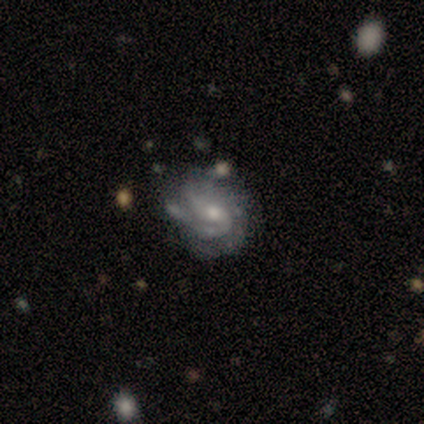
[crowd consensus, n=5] smooth_or_featured: featured or disk (p=1.00)
disk_edge_on: no (p=1.00)
bar: no (p=0.60) [alt: weak p=0.40]
has_spiral_arms: yes (p=1.00)
spiral_winding: medium (p=0.60) [alt: tight p=0.40]
spiral_arm_count: 2 (p=0.40) [tied with: can't tell p=0.40]
bulge_size: small (p=0.60) [alt: moderate p=0.40]
merging: none (p=1.00)